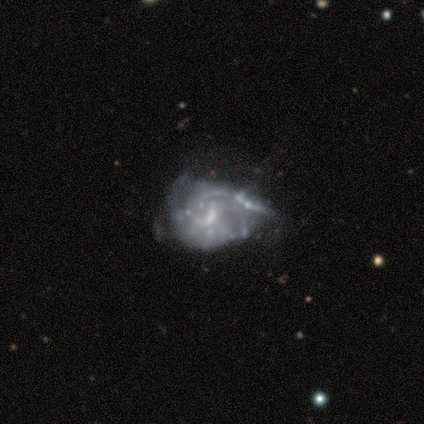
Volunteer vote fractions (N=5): Morphology: type=featured or disk (80%); edge-on=no (100%); bar=weak (50%, tied with no); spiral arms=yes (50%, tied with no); winding=tight (50%, tied with medium); arm count=can't tell (100%); bulge=small (75%); merging=minor disturbance (40%, tied with major disturbance).